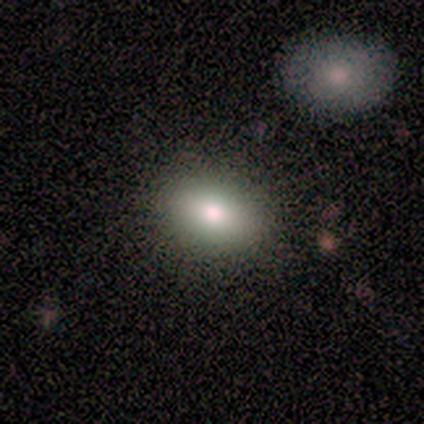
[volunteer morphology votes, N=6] Overall: smooth (67%). How rounded: in between (100%). Merging: none (60%; minor disturbance 40%).